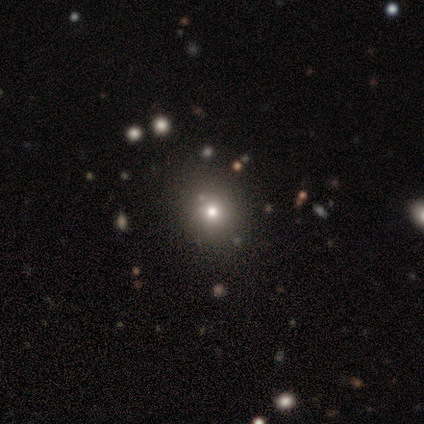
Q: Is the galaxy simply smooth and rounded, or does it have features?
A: smooth — 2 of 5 (40%, tied with featured or disk).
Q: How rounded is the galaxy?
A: round — 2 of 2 (100%).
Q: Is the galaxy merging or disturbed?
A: none — 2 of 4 (50%).